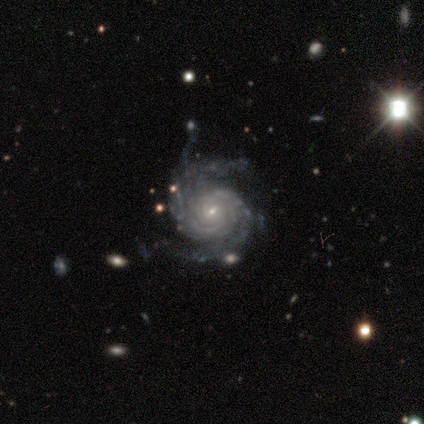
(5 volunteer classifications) A featured or disk galaxy (100%) with a weak bar (80%), 2 (100%) tight (80%) spiral arms (100%) and a small central bulge (80%).

Vote fractions:
- Smooth or featured? featured or disk: 100% / smooth: 0% / star or artifact: 0%
- Edge-on disk? no: 100% / yes: 0%
- Bar? weak: 80% / no: 20% / strong: 0%
- Spiral arms? yes: 100% / no: 0%
- Spiral winding? tight: 80% / loose: 20% / medium: 0%
- Spiral arm count? 2: 100% / 1: 0% / 3: 0% / 4: 0% / more than 4: 0% / can't tell: 0%
- Bulge size? small: 80% / moderate: 20% / dominant: 0% / large: 0% / none: 0%
- Merging? none: 80% / minor disturbance: 20% / major disturbance: 0% / merger: 0%